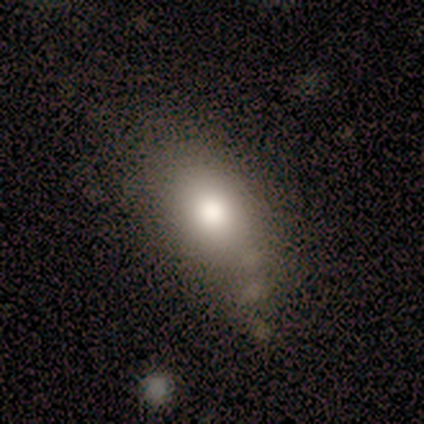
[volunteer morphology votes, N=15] A smooth galaxy with no disk features (67%) that is in between round and cigar-shaped (90%).

Vote fractions:
- Smooth or featured? smooth: 67% / featured or disk: 27% / star or artifact: 7%
- How rounded? in between: 90% / round: 10% / cigar-shaped: 0%
- Merging? none: 57% / minor disturbance: 36% / merger: 7% / major disturbance: 0%